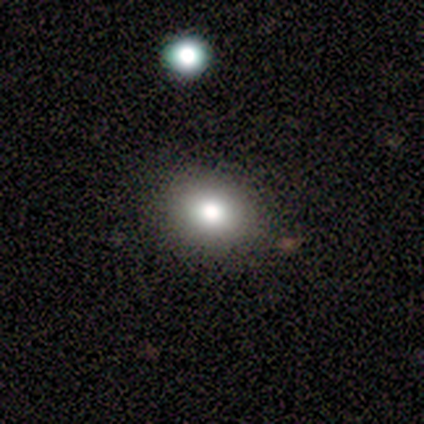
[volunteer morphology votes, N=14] A smooth galaxy with no disk features (79%) that is round (64%). Merging: none (86%).